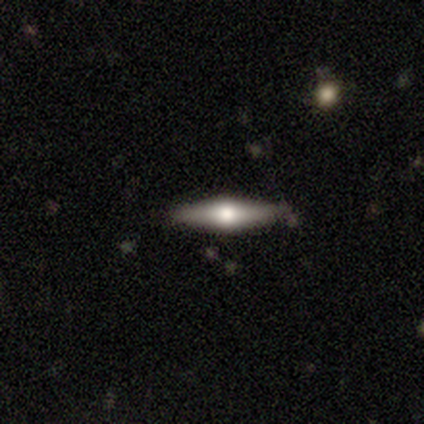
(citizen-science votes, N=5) Smooth or featured? featured or disk (60%)
Edge-on disk? yes (100%)
Edge-on bulge? rounded (100%)
Merging? none (100%)